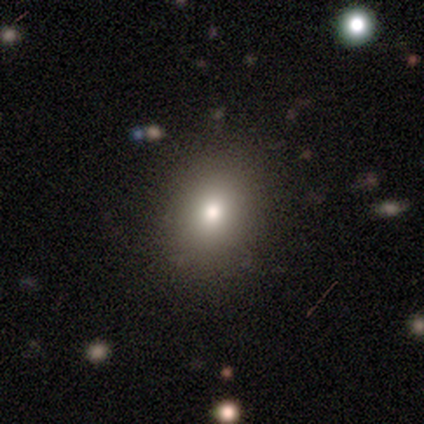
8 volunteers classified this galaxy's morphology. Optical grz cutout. It shows a smooth galaxy with no disk features (75%) that is round (83%). Merging: none (100%).